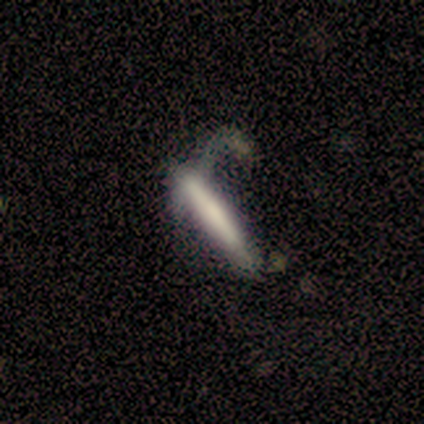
smooth-or-featured: smooth: 60% | featured or disk: 40% | star or artifact: 0%
  how-rounded: cigar-shaped: 100% | round: 0% | in between: 0%
  merging: major disturbance: 60% | none: 20% | merger: 20% | minor disturbance: 0%